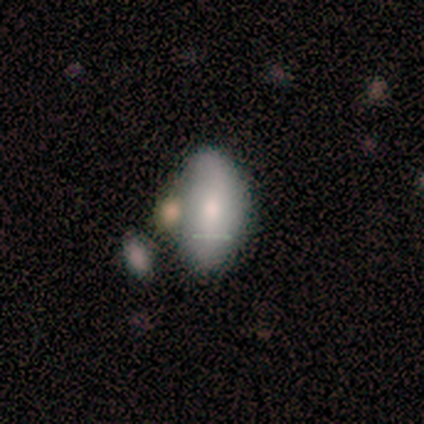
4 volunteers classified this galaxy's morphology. This appears to be a smooth galaxy with no disk features (75%) that is in between round and cigar-shaped (67%). Merging: none (75%).